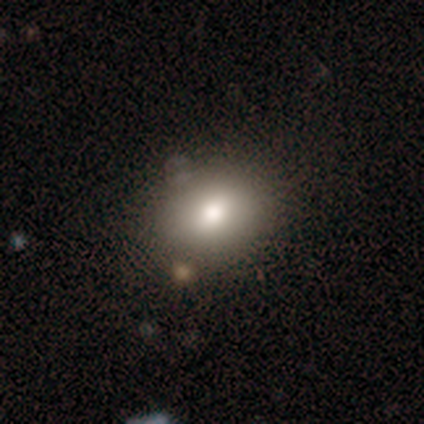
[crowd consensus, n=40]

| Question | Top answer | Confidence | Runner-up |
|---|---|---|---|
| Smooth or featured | smooth | 75% | featured or disk (22%) |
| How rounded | in between | 60% | round (40%) |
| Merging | none | 85% | minor disturbance (13%) |